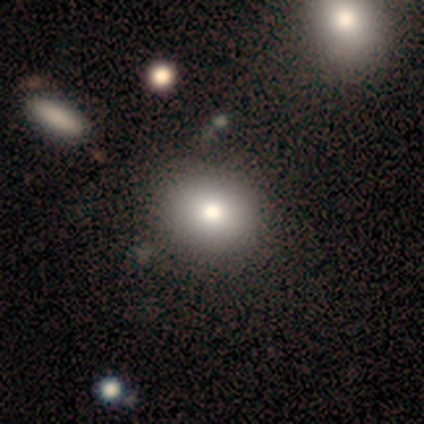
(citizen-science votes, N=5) This appears to be a smooth galaxy with no disk features (80%) that is round (75%). Merging: none (100%).